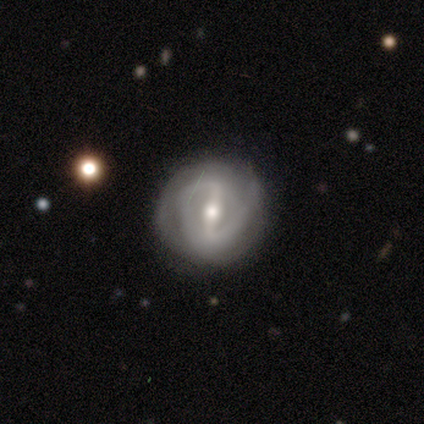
A featured or disk galaxy (76%) with a strong bar (68%), 2 (71%) tight (47%) spiral arms (83%) and a moderate central bulge (66%).

Vote fractions:
- Smooth or featured? featured or disk: 76% / smooth: 16% / star or artifact: 7%
- Edge-on disk? no: 98% / yes: 2%
- Bar? strong: 68% / weak: 27% / no: 5%
- Spiral arms? yes: 83% / no: 17%
- Spiral winding? tight: 47% / medium: 41% / loose: 12%
- Spiral arm count? 2: 71% / can't tell: 21% / 1: 3% / 3: 3% / 4: 3% / more than 4: 0%
- Bulge size? moderate: 66% / small: 24% / large: 7% / dominant: 2% / none: 0%
- Merging? none: 57% / minor disturbance: 12% / merger: 8% / major disturbance: 4%